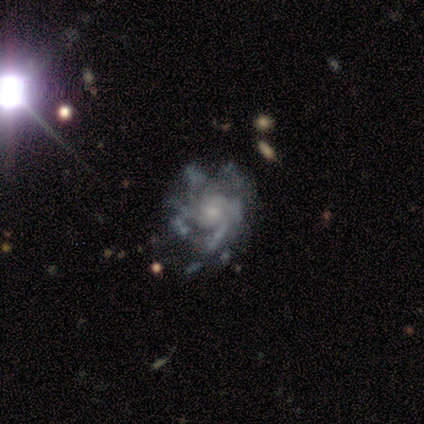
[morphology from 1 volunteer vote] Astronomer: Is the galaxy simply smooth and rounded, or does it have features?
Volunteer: featured or disk — 100%.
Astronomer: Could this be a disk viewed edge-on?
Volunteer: no — 100%.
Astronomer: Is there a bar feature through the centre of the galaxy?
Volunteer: no — 100%.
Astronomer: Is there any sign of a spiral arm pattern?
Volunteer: no — 100%.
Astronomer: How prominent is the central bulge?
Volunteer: small — 100%.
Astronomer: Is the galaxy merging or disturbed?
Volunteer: none — 100%.